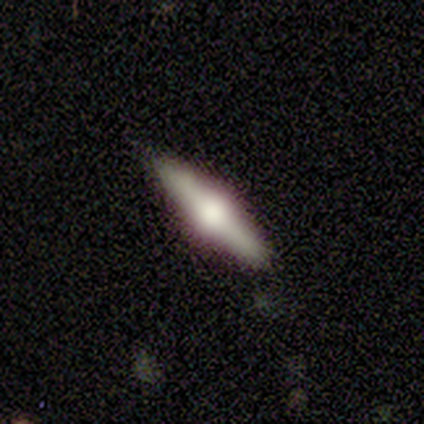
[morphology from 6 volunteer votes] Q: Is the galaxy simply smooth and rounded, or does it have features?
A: featured or disk — 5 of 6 (83%).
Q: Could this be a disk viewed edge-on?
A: yes — 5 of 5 (100%).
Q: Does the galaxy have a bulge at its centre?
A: rounded — 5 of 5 (100%).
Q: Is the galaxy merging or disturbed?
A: none — 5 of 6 (83%).